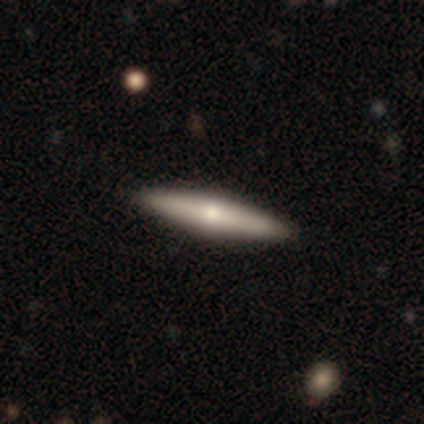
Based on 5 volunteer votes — Smooth or featured?
  - smooth: 60% *
  - featured or disk: 40%
  - star or artifact: 0%
How rounded?
  - cigar-shaped: 67% *
  - in between: 33%
  - round: 0%
Merging?
  - none: 100% *
  - minor disturbance: 0%
  - major disturbance: 0%
  - merger: 0%